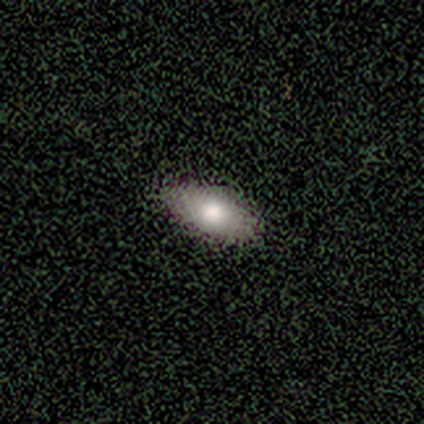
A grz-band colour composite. It shows a smooth galaxy with no disk features (100%) that is in between round and cigar-shaped (80%). Merging: none (80%).